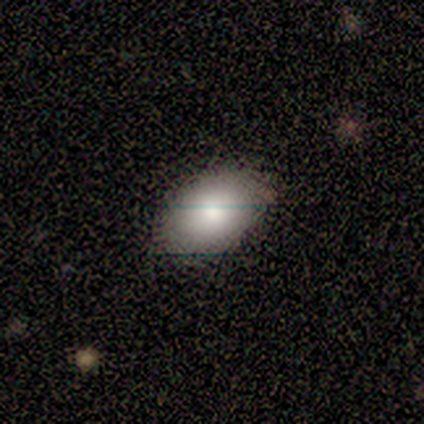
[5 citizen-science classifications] smooth 80%, featured or disk 20%, star or artifact 0%. Down the decision tree: how rounded — in between (100%); merging — minor disturbance (40%, tied with major disturbance).